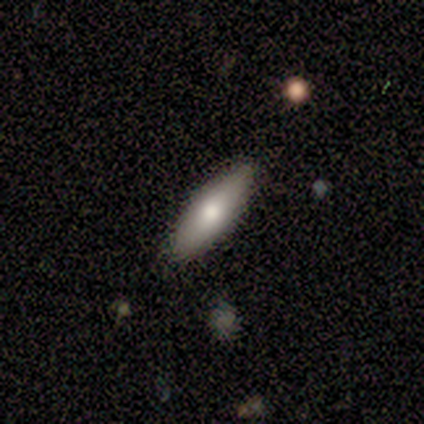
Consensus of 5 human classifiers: smooth 80%, featured or disk 20%, star or artifact 0%. Down the decision tree: how rounded — in between (100%); merging — none (60%).